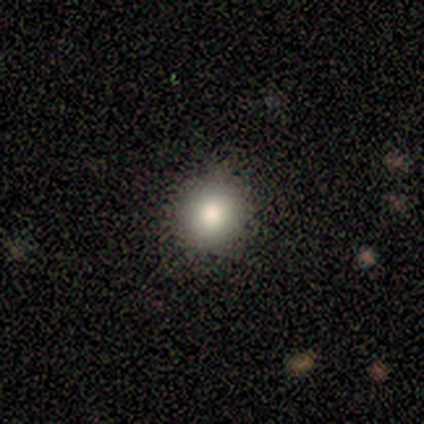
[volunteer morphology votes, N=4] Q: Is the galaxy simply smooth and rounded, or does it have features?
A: smooth — 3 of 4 (75%).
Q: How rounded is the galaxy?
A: round — 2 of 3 (67%).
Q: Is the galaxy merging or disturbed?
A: none — 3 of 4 (75%).